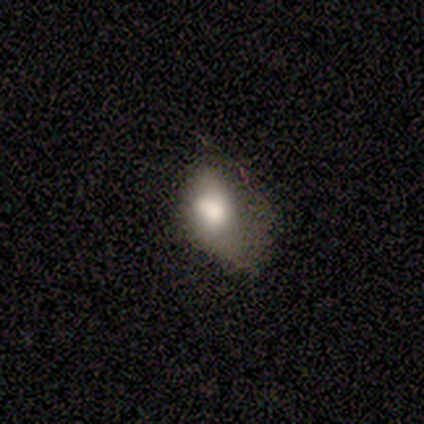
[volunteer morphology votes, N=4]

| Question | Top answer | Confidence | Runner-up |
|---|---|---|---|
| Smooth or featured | smooth | 75% | featured or disk (25%) |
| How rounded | in between | 100% | — |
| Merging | minor disturbance | 50% | none (25%) |